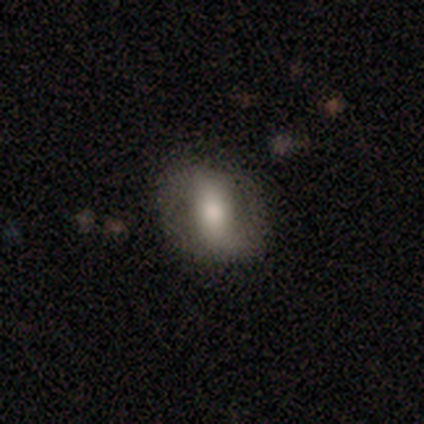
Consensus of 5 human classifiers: Q: Smooth or featured?
A: featured or disk (60%); runner-up: smooth (40%)
Q: Edge-on disk?
A: no (100%)
Q: Bar?
A: no (67%); runner-up: weak (33%)
Q: Spiral arms?
A: yes (67%); runner-up: no (33%)
Q: Spiral winding?
A: tight (50%); tied with: loose (50%)
Q: Spiral arm count?
A: 2 (100%)
Q: Bulge size?
A: moderate (67%); runner-up: large (33%)
Q: Merging?
A: minor disturbance (60%); runner-up: none (40%)